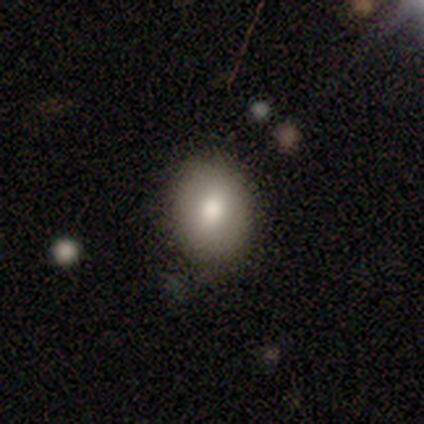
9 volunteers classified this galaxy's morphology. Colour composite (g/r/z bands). It shows a smooth galaxy with no disk features (89%) that is round (62%). Merging: none (78%).